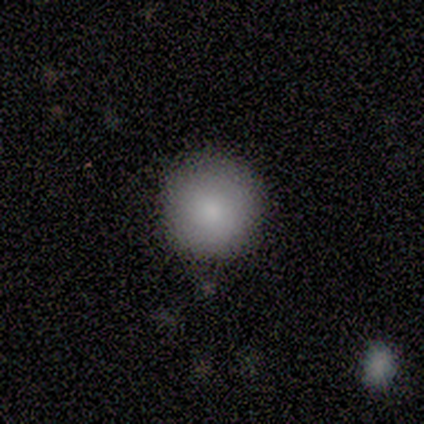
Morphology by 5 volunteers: Q: Smooth or featured?
A: smooth (100%)
Q: How rounded?
A: round (80%); runner-up: in between (20%)
Q: Merging?
A: none (60%); runner-up: minor disturbance (40%)